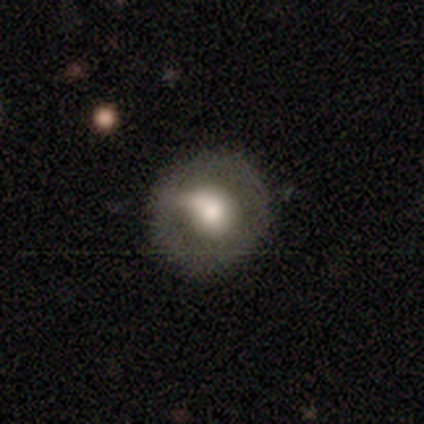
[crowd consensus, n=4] A smooth galaxy with no disk features (50%, tied with featured or disk) that is round (100%).

Vote fractions:
- Smooth or featured? smooth: 50% (tied) / featured or disk: 50% (tied) / star or artifact: 0%
- How rounded? round: 100% / in between: 0% / cigar-shaped: 0%
- Merging? none: 50% / major disturbance: 25% / merger: 25% / minor disturbance: 0%